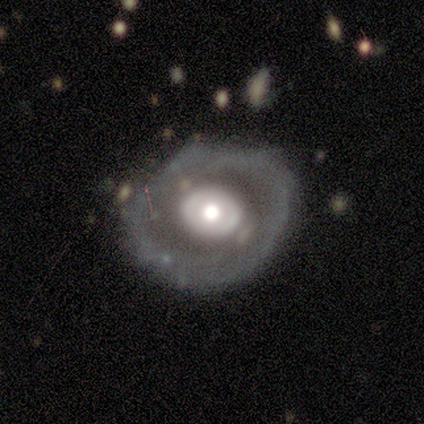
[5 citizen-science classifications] This appears to be a featured or disk galaxy (100%) with no bar (100%), no spiral arms (100%) and a moderate central bulge (100%). Merging: none (60%).